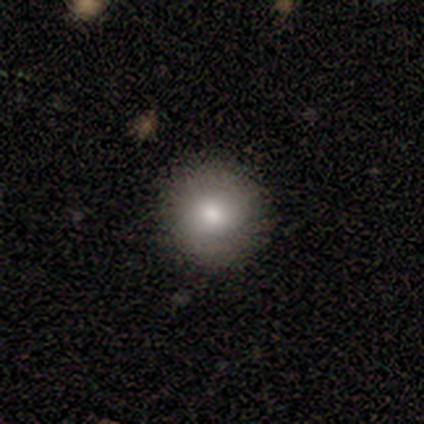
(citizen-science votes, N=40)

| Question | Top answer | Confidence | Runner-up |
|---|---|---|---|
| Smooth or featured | smooth | 75% | featured or disk (18%) |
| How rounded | round | 97% | cigar-shaped (3%) |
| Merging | none | 89% | minor disturbance (11%) |